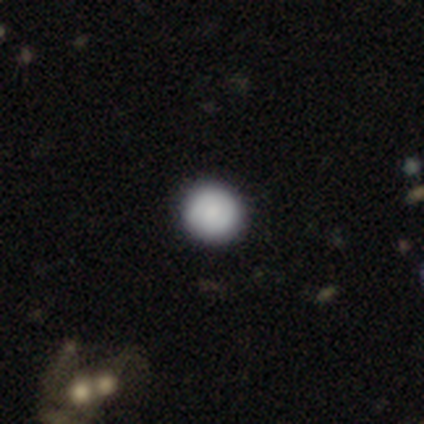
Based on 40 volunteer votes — Morphology: type=smooth (80%); roundness=round (100%); merging=none (92%).